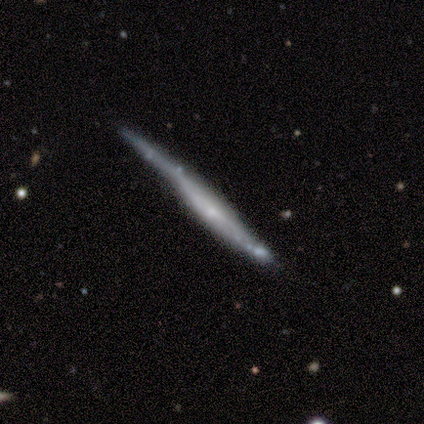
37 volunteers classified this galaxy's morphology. smooth-or-featured: featured or disk: 57% | smooth: 38% | star or artifact: 5%
  disk-edge-on: yes: 86% | no: 14%
    edge-on-bulge: none: 56% | boxy: 22% | rounded: 22%
  merging: none: 66% | minor disturbance: 20% | major disturbance: 9% | merger: 6%